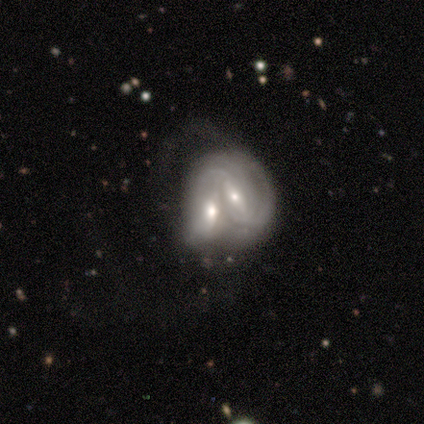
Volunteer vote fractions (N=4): A featured or disk galaxy (100%) with a weak bar (75%), 1 (33%, tied with 2 and can't tell) tight (33%, tied with medium and loose) spiral arms (75%) and a moderate central bulge (50%, tied with small).

Vote fractions:
- Smooth or featured? featured or disk: 100% / smooth: 0% / star or artifact: 0%
- Edge-on disk? no: 100% / yes: 0%
- Bar? weak: 75% / strong: 25% / no: 0%
- Spiral arms? yes: 75% / no: 25%
- Spiral winding? tight: 33% (tied) / medium: 33% (tied) / loose: 33% (tied)
- Spiral arm count? 1: 33% (tied) / 2: 33% (tied) / can't tell: 33% (tied) / 3: 0% / 4: 0% / more than 4: 0%
- Bulge size? moderate: 50% (tied) / small: 50% (tied) / dominant: 0% / large: 0% / none: 0%
- Merging? merger: 100% / none: 0% / minor disturbance: 0% / major disturbance: 0%